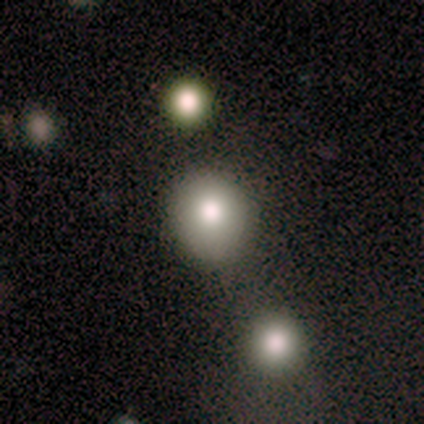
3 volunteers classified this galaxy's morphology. Smooth or featured? smooth (100%)
How rounded? round (100%)
Merging? none (67%)